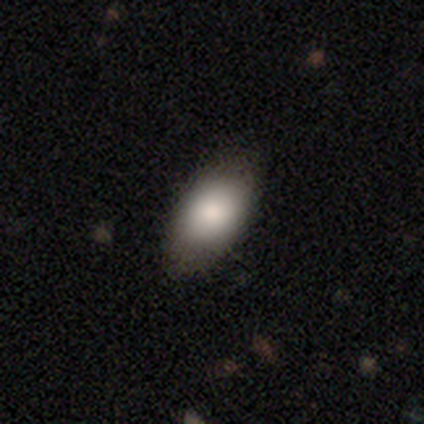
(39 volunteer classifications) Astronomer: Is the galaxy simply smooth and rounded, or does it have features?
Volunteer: smooth — 79%.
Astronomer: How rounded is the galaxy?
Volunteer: in between — 100%.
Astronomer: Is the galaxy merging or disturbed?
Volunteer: none — 79%.